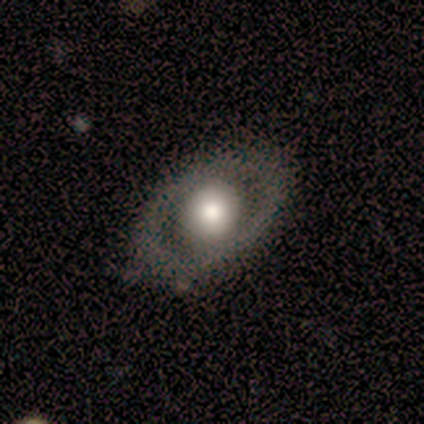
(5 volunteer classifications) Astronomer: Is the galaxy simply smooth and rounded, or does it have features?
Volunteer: featured or disk — 80%.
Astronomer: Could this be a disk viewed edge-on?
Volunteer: no — 100%.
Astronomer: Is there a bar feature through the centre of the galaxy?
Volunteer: no — 100%.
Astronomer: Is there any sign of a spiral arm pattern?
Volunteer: no — 100%.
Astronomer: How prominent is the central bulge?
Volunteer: large — 75%.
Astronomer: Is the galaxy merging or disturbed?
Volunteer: none — 75%.